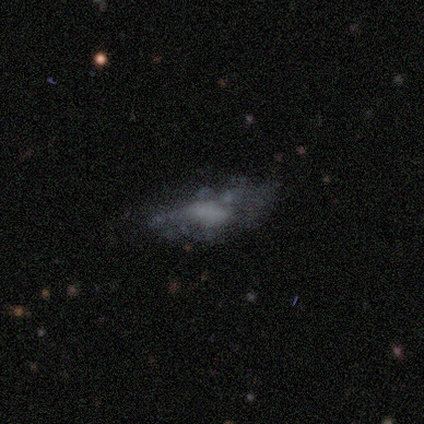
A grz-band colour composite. It shows a featured or disk galaxy (60%) with no bar (67%), no spiral arms (67%) and no central bulge (100%). Merging: minor disturbance (40%, tied with major disturbance).